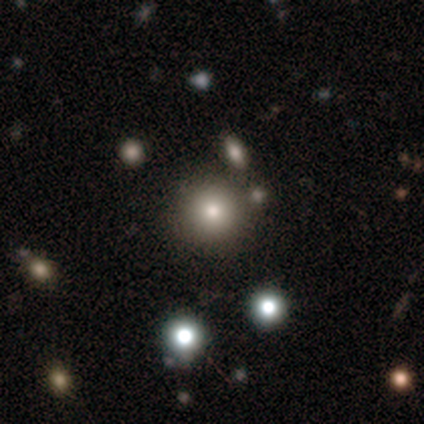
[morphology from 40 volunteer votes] Overall: smooth (72%). How rounded: round (97%). Merging: none (94%).